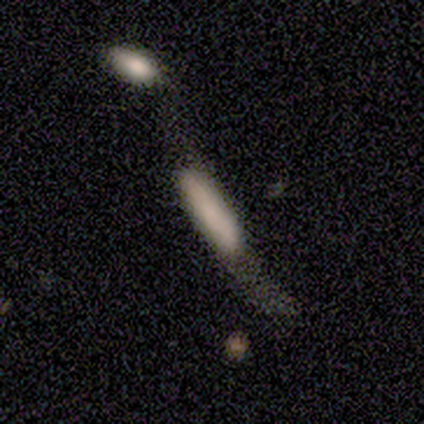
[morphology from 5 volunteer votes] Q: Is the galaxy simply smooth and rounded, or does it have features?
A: smooth — 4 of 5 (80%).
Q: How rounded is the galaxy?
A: cigar-shaped — 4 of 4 (100%).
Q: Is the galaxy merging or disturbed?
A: merger — 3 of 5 (60%).